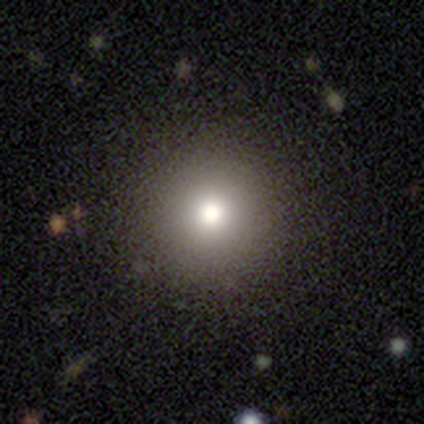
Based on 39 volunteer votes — A smooth galaxy with no disk features (69%) that is round (100%). Merging: none (100%).